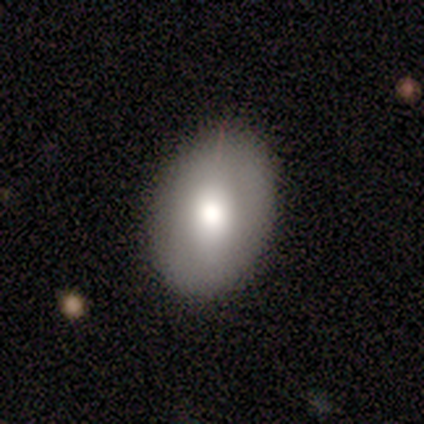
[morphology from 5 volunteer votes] smooth 80%, featured or disk 20%, star or artifact 0%. Down the decision tree: how rounded — in between (100%); merging — none (80%).